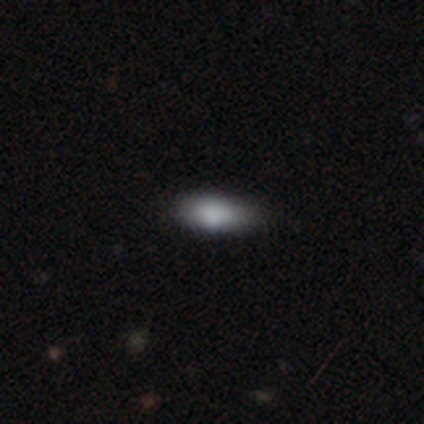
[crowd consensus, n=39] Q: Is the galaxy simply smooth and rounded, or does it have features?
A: smooth — 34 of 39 (87%).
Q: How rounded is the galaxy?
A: in between — 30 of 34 (88%).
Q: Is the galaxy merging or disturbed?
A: none — 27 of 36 (75%).